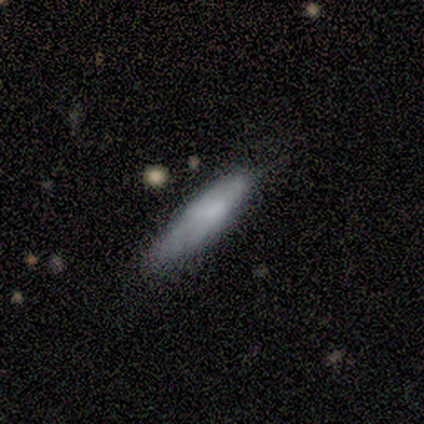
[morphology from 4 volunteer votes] Smooth or featured? 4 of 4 (100%) said smooth. How rounded? 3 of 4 (75%) said cigar-shaped. Merging? 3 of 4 (75%) said none.